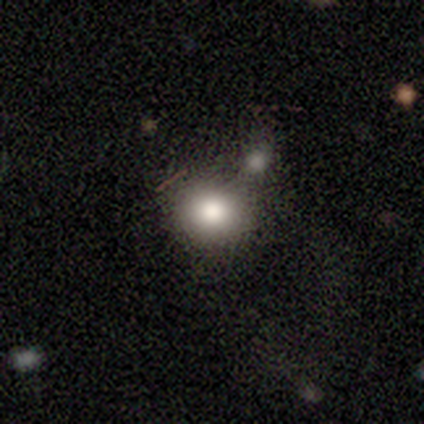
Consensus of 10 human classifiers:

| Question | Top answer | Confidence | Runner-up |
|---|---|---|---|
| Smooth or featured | smooth | 100% | — |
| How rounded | round | 60% | in between (40%) |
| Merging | none | 80% | merger (20%) |